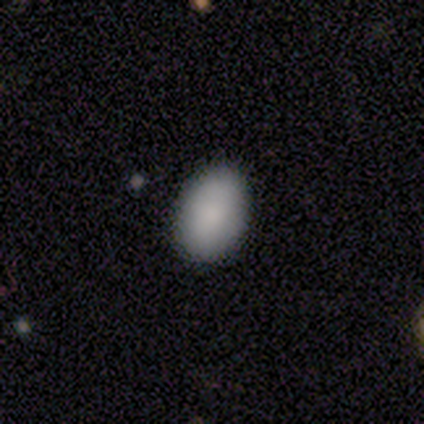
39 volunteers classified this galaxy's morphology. A smooth galaxy with no disk features (92%) that is in between round and cigar-shaped (89%). Merging: none (92%).